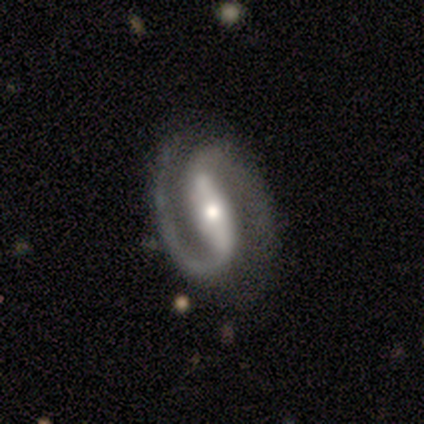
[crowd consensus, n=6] Overall: featured or disk (100%). Edge-on disk: no (100%). Bar: strong (50%, tied with weak). Spiral arms: yes (100%). Spiral arm count: 2 (83%). Spiral winding: medium (67%; tight 33%). Bulge size: moderate (67%; large 33%). Merging: none (67%).